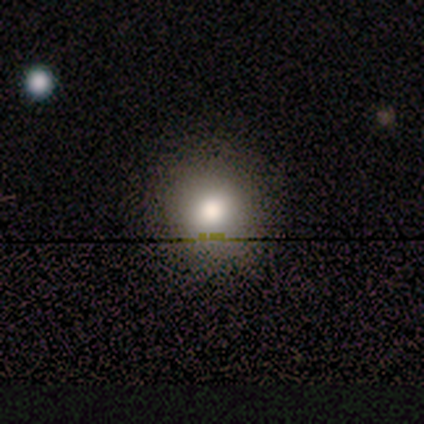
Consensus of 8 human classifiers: smooth-or-featured: smooth: 88% | featured or disk: 12% | star or artifact: 0%
  how-rounded: round: 100% | in between: 0% | cigar-shaped: 0%
  merging: none: 100% | minor disturbance: 0% | major disturbance: 0% | merger: 0%